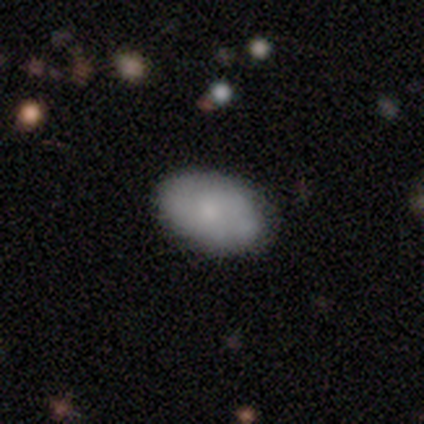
smooth 76%, featured or disk 18%, star or artifact 6%. Down the decision tree: how rounded — in between (96%); merging — none (65%).